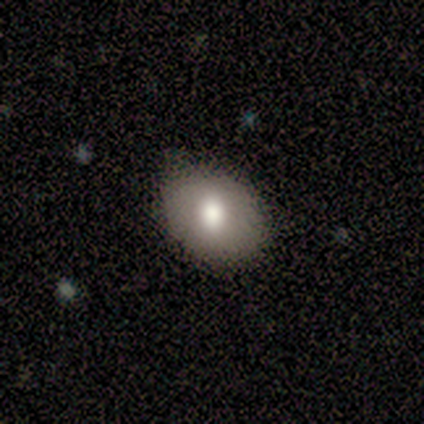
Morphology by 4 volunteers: smooth-or-featured: smooth: 100% | featured or disk: 0% | star or artifact: 0%
  how-rounded: in between: 75% | round: 25% | cigar-shaped: 0%
  merging: none: 75% | minor disturbance: 25% | major disturbance: 0% | merger: 0%